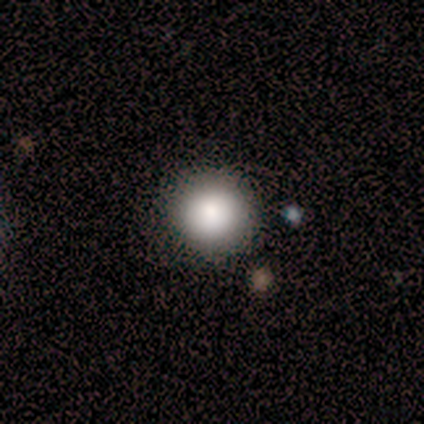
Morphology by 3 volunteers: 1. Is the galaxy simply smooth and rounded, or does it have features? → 100% smooth, 0% featured or disk, 0% star or artifact.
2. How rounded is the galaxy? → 100% round, 0% in between, 0% cigar-shaped.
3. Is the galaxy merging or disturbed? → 67% none, 33% minor disturbance, 0% major disturbance, 0% merger.